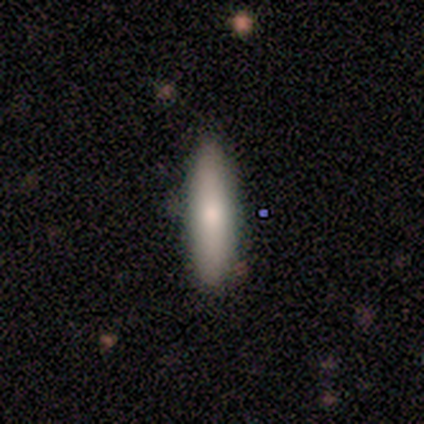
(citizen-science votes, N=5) Q: Smooth or featured?
A: smooth (60%); runner-up: featured or disk (20%)
Q: How rounded?
A: in between (67%); runner-up: cigar-shaped (33%)
Q: Merging?
A: none (100%)